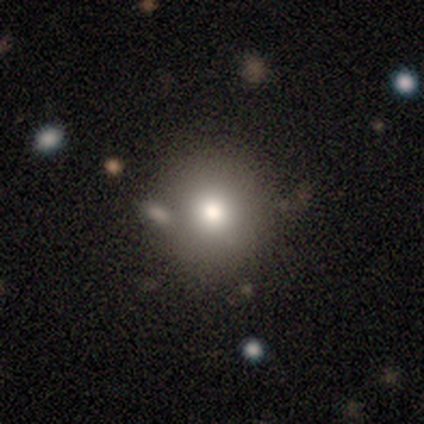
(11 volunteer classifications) smooth 82%, featured or disk 18%, star or artifact 0%. Down the decision tree: how rounded — round (100%); merging — none (82%).